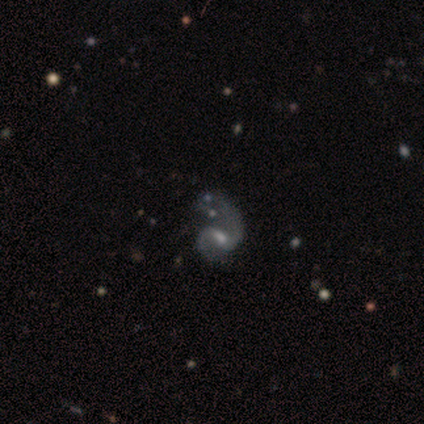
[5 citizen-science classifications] Morphology: type=featured or disk (80%); edge-on=no (100%); bar=no (50%); spiral arms=yes (100%); winding=medium (50%, tied with loose); arm count=2 (100%); bulge=small (75%); merging=major disturbance (50%).